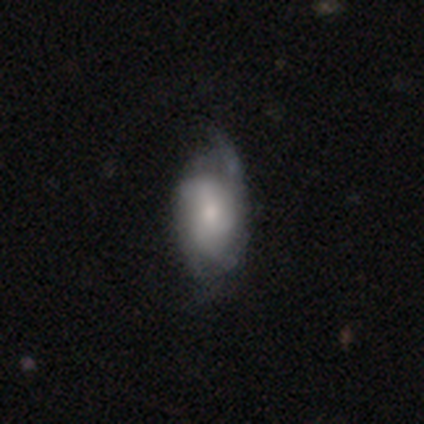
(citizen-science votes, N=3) A featured or disk galaxy (67%) with no bar (100%), medium (100%) spiral arms (50%, tied with no) and a moderate central bulge (50%, tied with small). Merging: none (50%, tied with major disturbance).